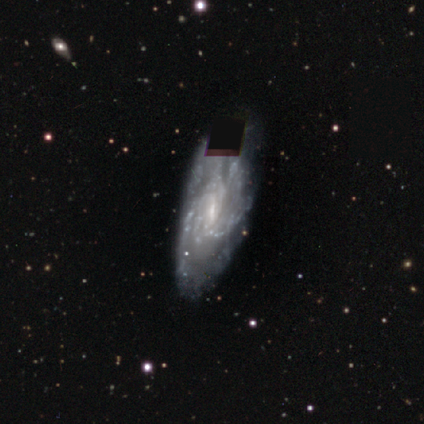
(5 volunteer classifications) Smooth or featured? featured or disk (60%)
Edge-on disk? no (67%)
Bar? no (100%)
Spiral arms? yes (50%, tied with no)
Spiral winding? tight (100%)
Spiral arm count? 1 (100%)
Bulge size? small (100%)
Merging? none (75%)